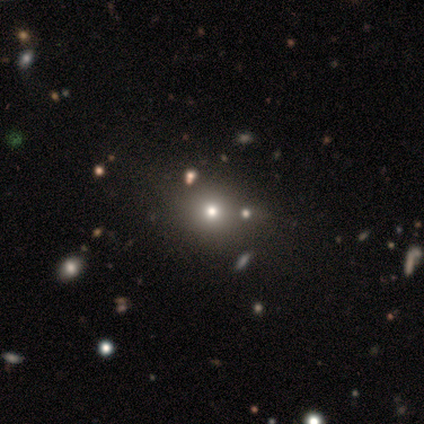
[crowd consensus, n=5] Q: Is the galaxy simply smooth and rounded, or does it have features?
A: smooth — 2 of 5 (40%, tied with star or artifact).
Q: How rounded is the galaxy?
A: round — 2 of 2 (100%).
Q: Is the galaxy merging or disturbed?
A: none — 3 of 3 (100%).